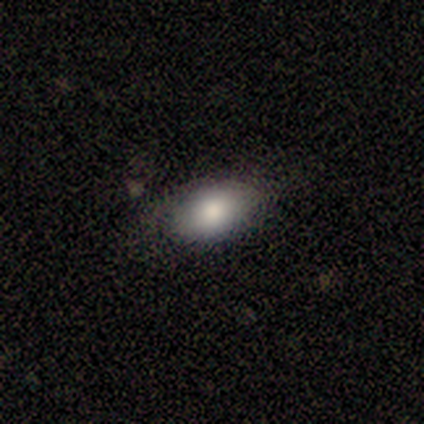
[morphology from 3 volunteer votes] Volunteers were most divided on "merging": none: 67%, minor disturbance: 33%, major disturbance: 0%, merger: 0%. More confident: smooth or featured — smooth (100%); how rounded — in between (100%).